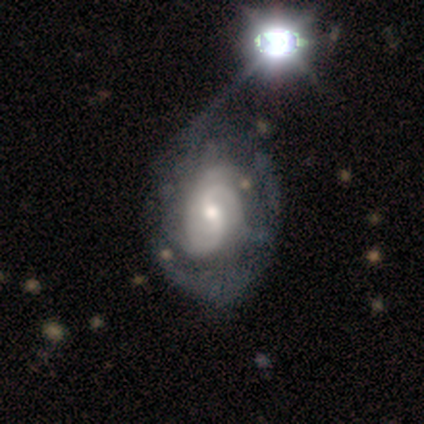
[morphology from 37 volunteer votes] smooth-or-featured: featured or disk: 78% | star or artifact: 16% | smooth: 5%
  disk-edge-on: no: 100% | yes: 0%
    bar: weak: 48% | no: 45% | strong: 7%
    has-spiral-arms: yes: 90% | no: 10%
      spiral-winding: medium: 50% | tight: 42% | loose: 8%
      spiral-arm-count: 3: 42% | can't tell: 38% | 2: 15% | 1: 4% | 4: 0% | more than 4: 0%
    bulge-size: moderate: 55% | small: 38% | large: 7% | dominant: 0% | none: 0%
  merging: major disturbance: 29% | none: 26% | minor disturbance: 6% | merger: 3%